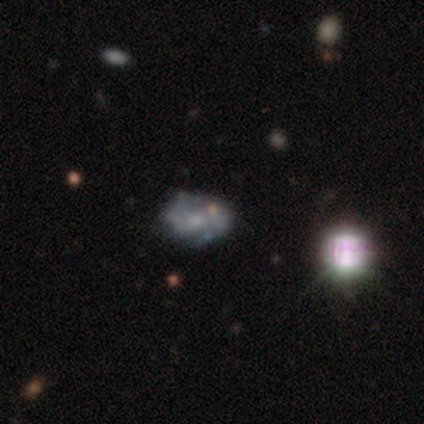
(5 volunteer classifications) This is clearly a featured or disk galaxy (80%). It is clearly not viewed edge-on (100%). Bar: likely no (75%). Spiral arm pattern: likely yes (75%). Spiral arm count: likely can't tell (67%). Spiral winding: likely medium (67%). Central bulge: likely small (75%). Merging: clearly none (100%).